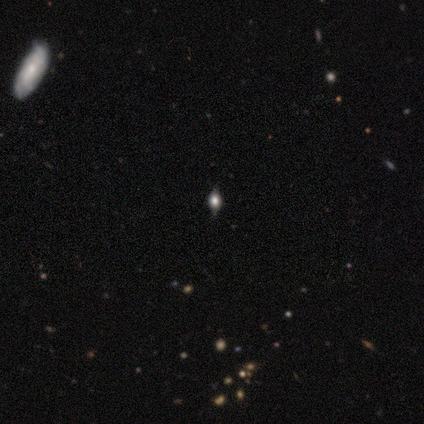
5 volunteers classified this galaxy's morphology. smooth-or-featured: smooth: 40% (tied) | featured or disk: 40% (tied) | star or artifact: 20%
  how-rounded: in between: 100% | round: 0% | cigar-shaped: 0%
  merging: none: 75% | minor disturbance: 25% | major disturbance: 0% | merger: 0%